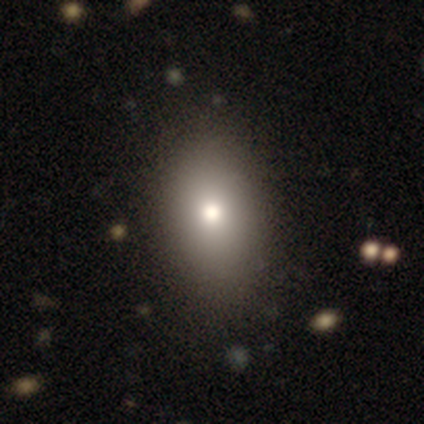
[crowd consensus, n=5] Smooth or featured?
  - smooth: 100% *
  - featured or disk: 0%
  - star or artifact: 0%
How rounded?
  - in between: 100% *
  - round: 0%
  - cigar-shaped: 0%
Merging?
  - none: 100% *
  - minor disturbance: 0%
  - major disturbance: 0%
  - merger: 0%